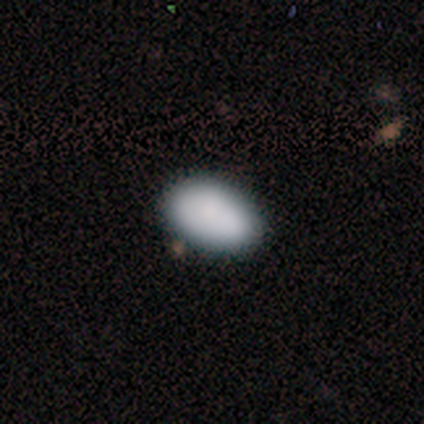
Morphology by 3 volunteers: smooth_or_featured: smooth (p=1.00)
how_rounded: in between (p=1.00)
merging: none (p=1.00)